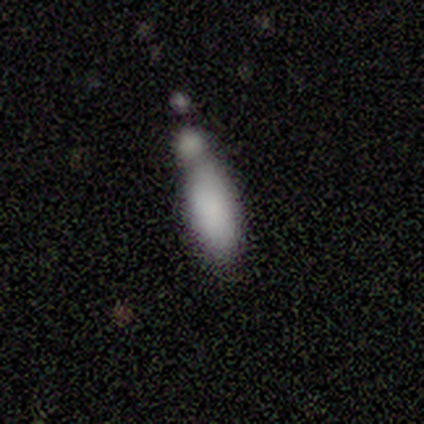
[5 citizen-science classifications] Smooth or featured? smooth (60%)
How rounded? cigar-shaped (67%)
Merging? minor disturbance (40%)